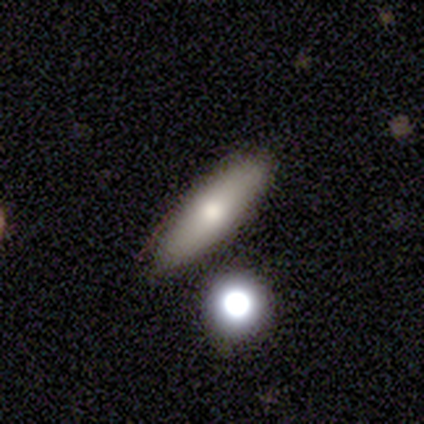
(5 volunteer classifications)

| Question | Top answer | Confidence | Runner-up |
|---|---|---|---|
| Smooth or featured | smooth | 80% | featured or disk (20%) |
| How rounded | cigar-shaped | 75% | in between (25%) |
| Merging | none | 100% | — |